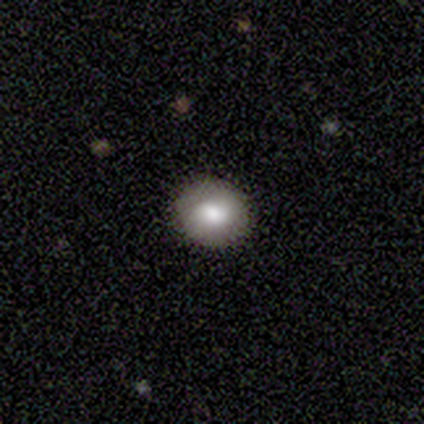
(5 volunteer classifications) A smooth galaxy with no disk features (80%) that is round (100%). Merging: none (40%, tied with minor disturbance).